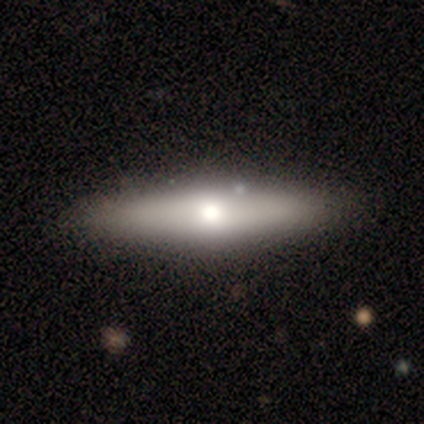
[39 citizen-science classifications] Smooth or featured? 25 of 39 (64%) said smooth. How rounded? 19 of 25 (76%) said cigar-shaped. Merging? 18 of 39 (46%) said none.